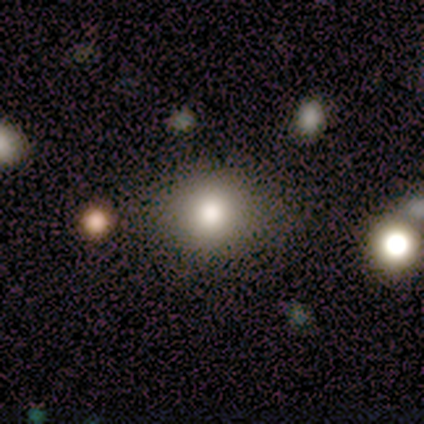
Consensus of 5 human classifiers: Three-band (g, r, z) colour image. It shows a smooth galaxy with no disk features (60%) that is round (67%). Merging: none (100%).